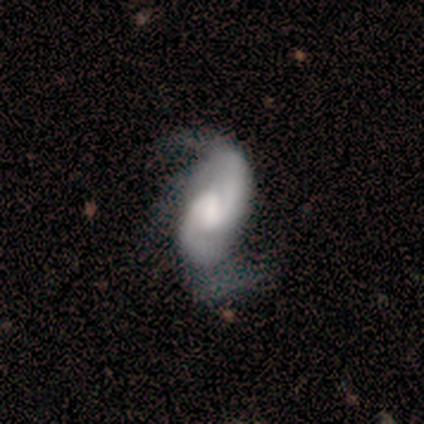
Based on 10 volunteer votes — This is clearly a featured or disk galaxy (80%). It is clearly not viewed edge-on (100%). Bar: likely weak (75%). Spiral arm pattern: clearly yes (100%). Spiral arm count: clearly 2 (88%). Spiral winding: likely medium (62%). Central bulge: possibly none (50%). Merging: marginally none (44%).